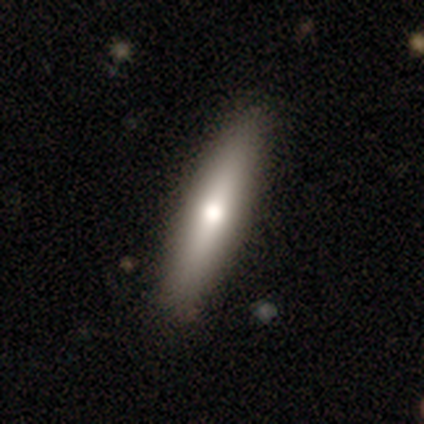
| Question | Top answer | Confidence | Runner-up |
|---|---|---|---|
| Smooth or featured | smooth | 61% | featured or disk (33%) |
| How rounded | cigar-shaped | 88% | in between (12%) |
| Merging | none | 86% | minor disturbance (9%) |